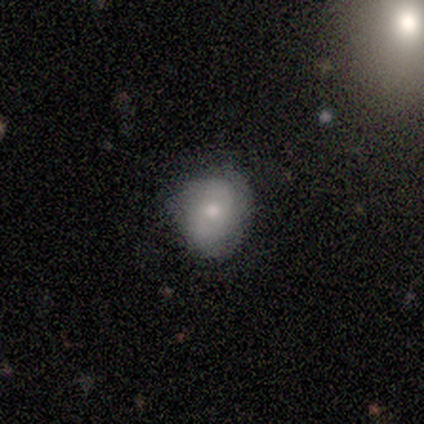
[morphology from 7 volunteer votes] A smooth galaxy with no disk features (71%) that is in between round and cigar-shaped (60%).

Vote fractions:
- Smooth or featured? smooth: 71% / featured or disk: 29% / star or artifact: 0%
- How rounded? in between: 60% / round: 40% / cigar-shaped: 0%
- Merging? none: 57% / minor disturbance: 43% / major disturbance: 0% / merger: 0%